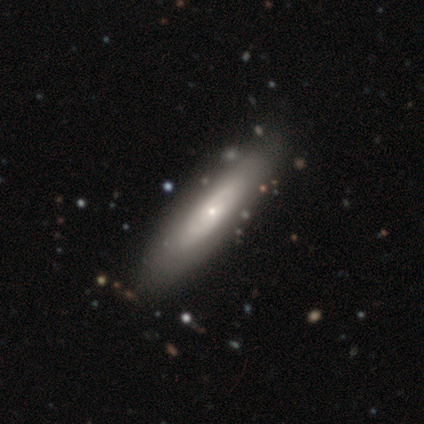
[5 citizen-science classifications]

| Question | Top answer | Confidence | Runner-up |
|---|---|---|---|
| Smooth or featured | featured or disk | 60% | smooth (40%) |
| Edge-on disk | no | 67% | yes (33%) |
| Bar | no | 100% | — |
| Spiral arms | yes | 100% | — |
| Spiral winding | medium | 100% | — |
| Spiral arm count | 2 | 50% | tied: can't tell (50%) |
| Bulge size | small | 100% | — |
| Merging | none | 100% | — |